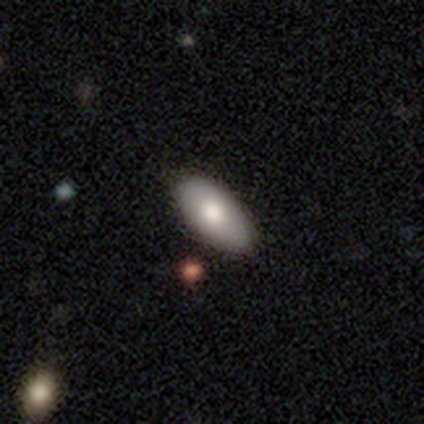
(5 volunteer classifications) Smooth or featured? smooth (60%)
How rounded? in between (100%)
Merging? none (75%)